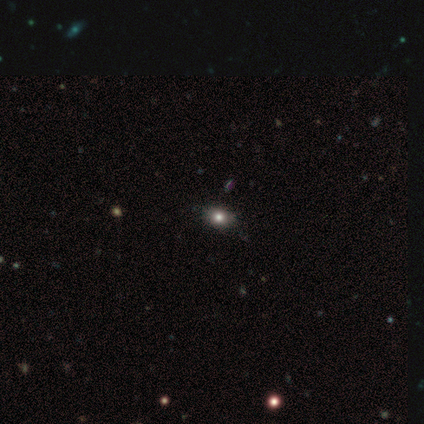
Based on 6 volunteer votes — Morphology: type=smooth (50%); roundness=in between (100%); merging=none (100%).